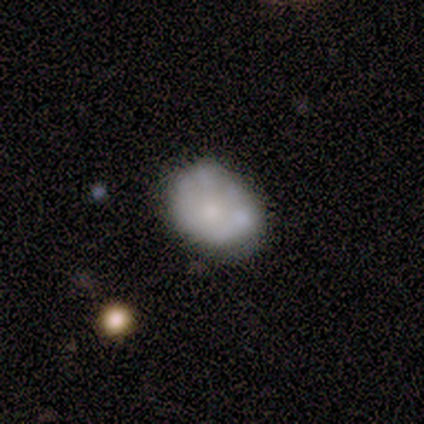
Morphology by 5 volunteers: Q: Smooth or featured?
A: smooth (60%); runner-up: featured or disk (20%)
Q: How rounded?
A: in between (67%); runner-up: round (33%)
Q: Merging?
A: none (50%); tied with: minor disturbance (50%)